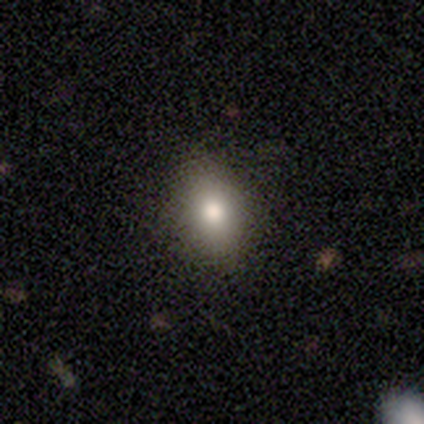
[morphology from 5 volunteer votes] smooth 80%, featured or disk 20%, star or artifact 0%. Down the decision tree: how rounded — round (50%, tied with in between); merging — none (80%).